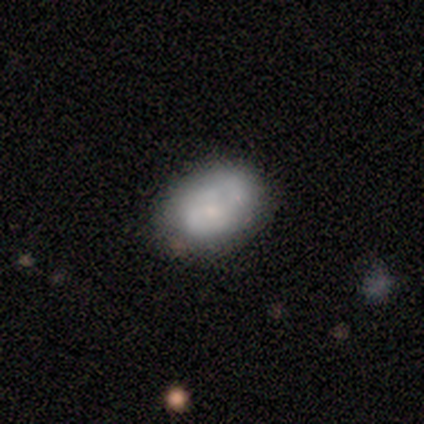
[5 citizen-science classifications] Volunteers were most divided on "merging": minor disturbance: 40%, none: 20%, major disturbance: 20%, merger: 20%. More confident: how rounded — in between (100%); smooth or featured — smooth (80%).